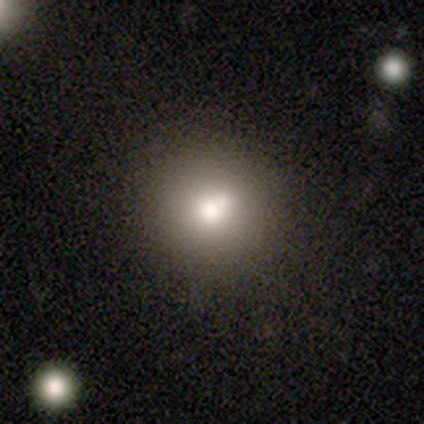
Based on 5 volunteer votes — Smooth or featured? smooth (40%, tied with featured or disk)
How rounded? round (100%)
Merging? minor disturbance (50%)